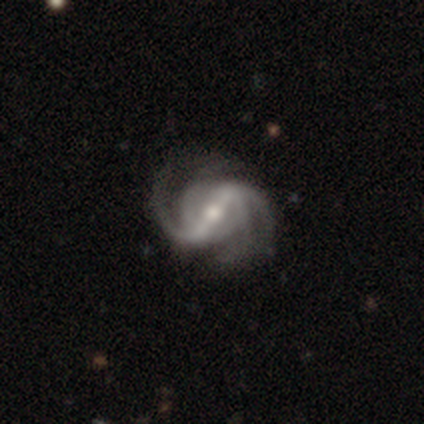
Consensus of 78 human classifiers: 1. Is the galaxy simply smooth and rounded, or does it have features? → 95% featured or disk, 3% smooth, 3% star or artifact.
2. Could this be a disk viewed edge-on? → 97% no, 3% yes.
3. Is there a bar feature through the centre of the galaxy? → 82% strong, 14% weak, 4% no.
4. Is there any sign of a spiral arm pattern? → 100% yes, 0% no.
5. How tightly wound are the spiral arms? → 56% medium, 29% loose, 15% tight.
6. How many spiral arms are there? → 53% 2, 24% 4, 14% 3, 10% can't tell, 0% 1, 0% more than 4.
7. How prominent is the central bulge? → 69% moderate, 26% small, 3% large, 1% dominant, 0% none.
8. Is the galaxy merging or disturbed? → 36% none, 9% minor disturbance, 5% major disturbance, 1% merger.